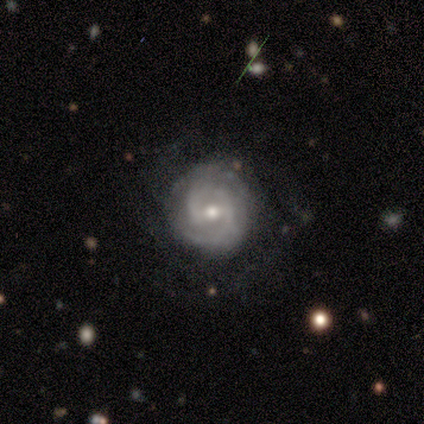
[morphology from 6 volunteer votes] This is clearly a featured or disk galaxy (100%). It is clearly not viewed edge-on (100%). Bar: likely weak (67%). Spiral arm pattern: clearly yes (100%). Spiral arm count: likely 2 (67%). Spiral winding: likely medium (67%). Central bulge: likely moderate (67%). Merging: clearly none (100%).